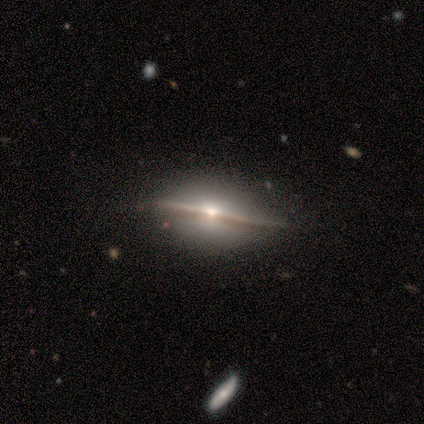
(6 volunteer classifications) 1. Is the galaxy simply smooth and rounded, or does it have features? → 83% featured or disk, 17% smooth, 0% star or artifact.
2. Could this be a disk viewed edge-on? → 100% yes, 0% no.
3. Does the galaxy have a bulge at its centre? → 80% rounded, 20% none, 0% boxy.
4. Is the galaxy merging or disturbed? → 100% none, 0% minor disturbance, 0% major disturbance, 0% merger.